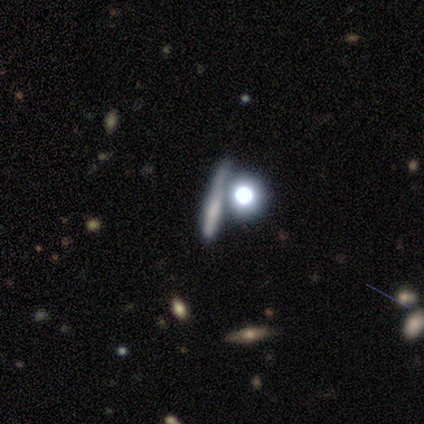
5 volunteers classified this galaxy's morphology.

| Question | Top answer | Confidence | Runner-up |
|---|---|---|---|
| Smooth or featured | smooth | 40% | tied: featured or disk (40%) |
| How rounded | round | 50% | tied: cigar-shaped (50%) |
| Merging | none | 75% | merger (25%) |